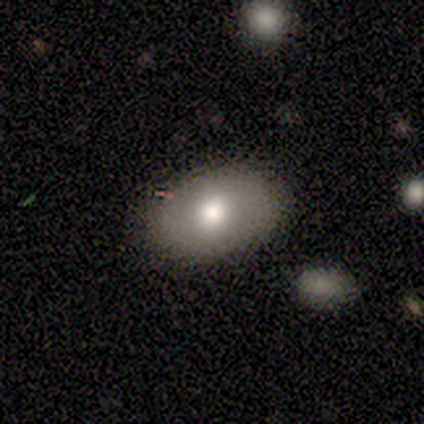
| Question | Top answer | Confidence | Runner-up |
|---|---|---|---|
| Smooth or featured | smooth | 67% | featured or disk (18%) |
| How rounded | in between | 85% | round (15%) |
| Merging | none | 85% | minor disturbance (15%) |